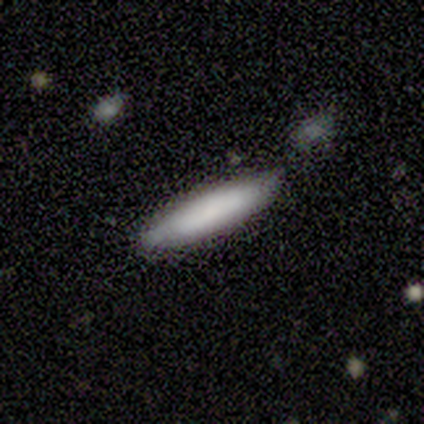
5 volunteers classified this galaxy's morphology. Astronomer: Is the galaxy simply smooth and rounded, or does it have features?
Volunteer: smooth — 100%.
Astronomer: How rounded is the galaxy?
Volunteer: cigar-shaped — 80%.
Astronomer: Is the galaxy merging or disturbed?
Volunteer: none — 80%.